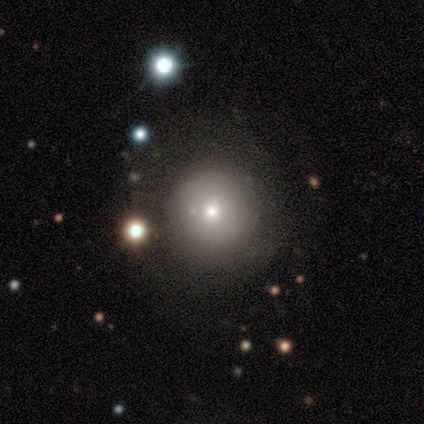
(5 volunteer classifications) smooth_or_featured: smooth (p=0.60) [alt: featured or disk p=0.40]
how_rounded: round (p=1.00)
merging: none (p=0.80) [alt: minor disturbance p=0.20]